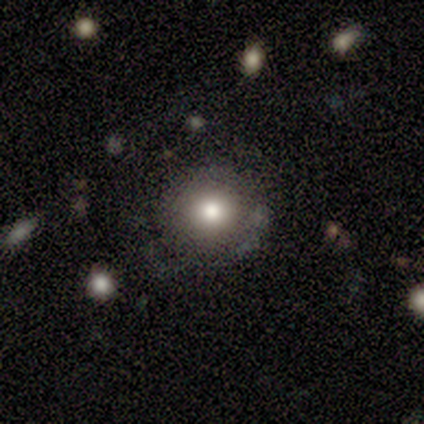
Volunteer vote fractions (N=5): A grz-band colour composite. It shows a smooth galaxy with no disk features (80%) that is round (100%). Merging: major disturbance (50%).